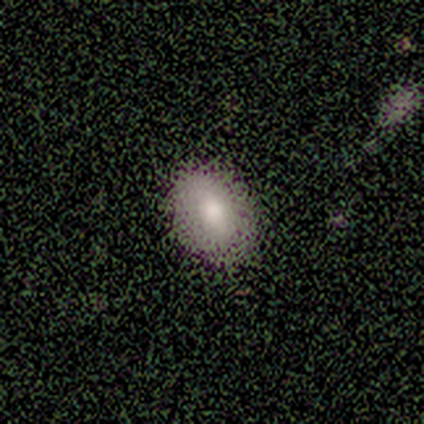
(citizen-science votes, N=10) Overall: smooth (80%). How rounded: in between (75%). Merging: none (80%).